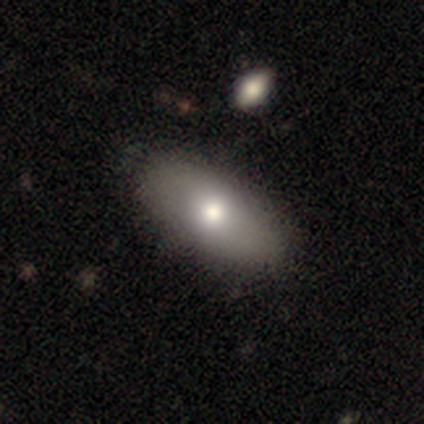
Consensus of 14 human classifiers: Q: Smooth or featured?
A: smooth (86%); runner-up: featured or disk (7%)
Q: How rounded?
A: in between (100%)
Q: Merging?
A: none (85%); runner-up: minor disturbance (8%)